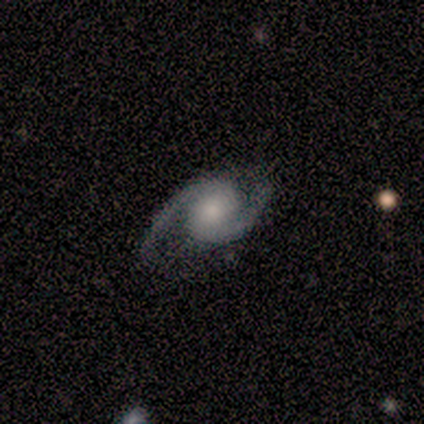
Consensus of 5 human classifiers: Smooth or featured? featured or disk (100%)
Edge-on disk? no (100%)
Bar? no (60%)
Spiral arms? yes (100%)
Spiral winding? tight (60%)
Spiral arm count? 2 (100%)
Bulge size? small (80%)
Merging? none (100%)